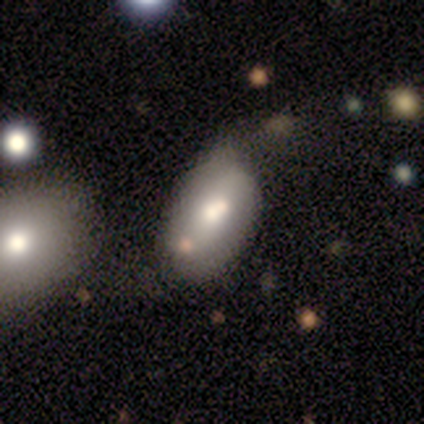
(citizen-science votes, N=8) smooth 50%, featured or disk 38%, star or artifact 12%. Down the decision tree: how rounded — in between (100%); merging — minor disturbance (57%).